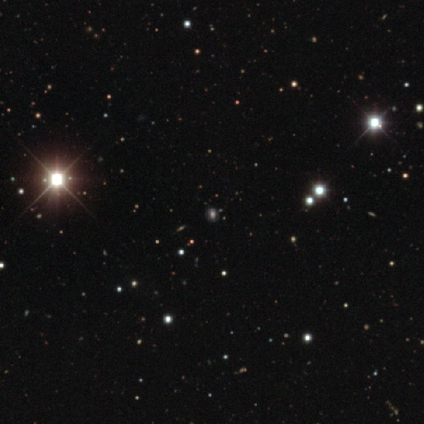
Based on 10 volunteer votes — Overall: star or artifact (60%; smooth 40%).